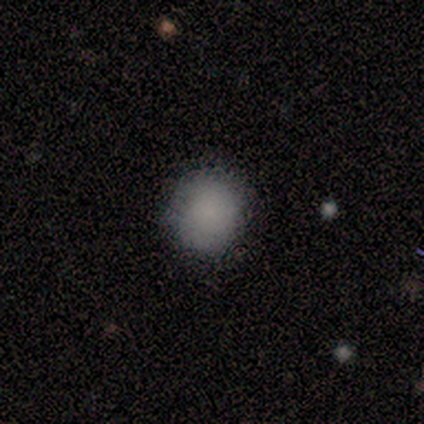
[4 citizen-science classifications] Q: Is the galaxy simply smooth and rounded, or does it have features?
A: smooth — 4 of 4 (100%).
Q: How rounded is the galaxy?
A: round — 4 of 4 (100%).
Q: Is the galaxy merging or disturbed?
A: none — 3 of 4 (75%).